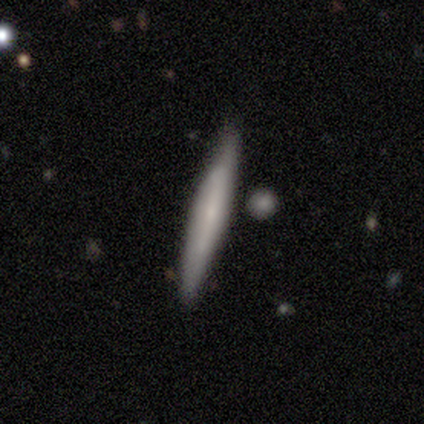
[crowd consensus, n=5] Smooth or featured? 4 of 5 (80%) said featured or disk. Edge-on disk? 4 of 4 (100%) said yes. Edge-on bulge? 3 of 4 (75%) said none. Merging? 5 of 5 (100%) said none.